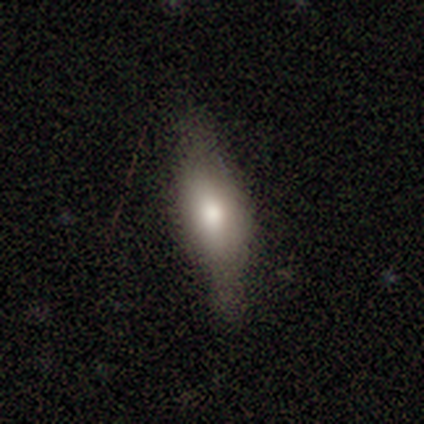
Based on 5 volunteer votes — This is likely a smooth galaxy (60%). How rounded: likely in between (67%). Merging: clearly none (80%).